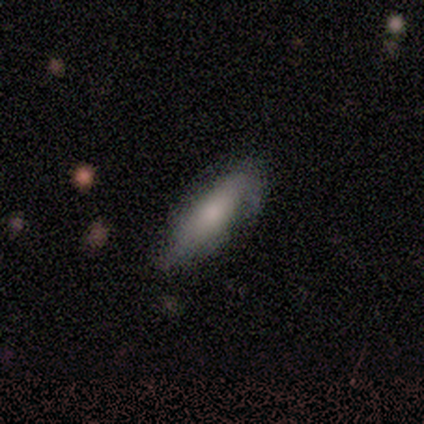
Smooth or featured?
  - smooth: 46% * (tied)
  - featured or disk: 46% * (tied)
  - star or artifact: 8%
How rounded?
  - in between: 50% * (tied)
  - cigar-shaped: 50% * (tied)
  - round: 0%
Merging?
  - none: 75% *
  - minor disturbance: 25%
  - major disturbance: 0%
  - merger: 0%